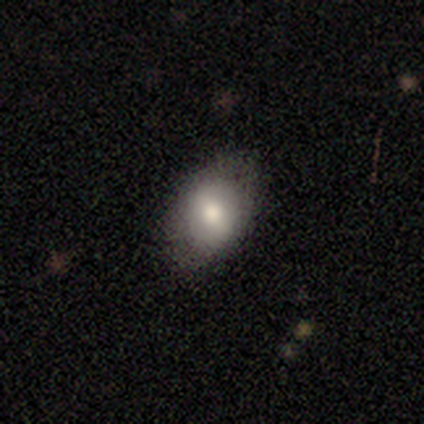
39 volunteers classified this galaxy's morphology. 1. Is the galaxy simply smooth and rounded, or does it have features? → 69% smooth, 21% featured or disk, 10% star or artifact.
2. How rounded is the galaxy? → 74% in between, 26% round, 0% cigar-shaped.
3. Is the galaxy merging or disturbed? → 86% none, 6% minor disturbance, 6% merger, 3% major disturbance.